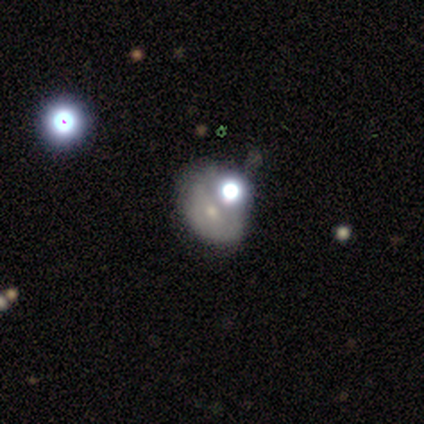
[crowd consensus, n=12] Overall: smooth (83%). How rounded: in between (60%; round 40%). Merging: none (30%, tied with minor disturbance and merger).